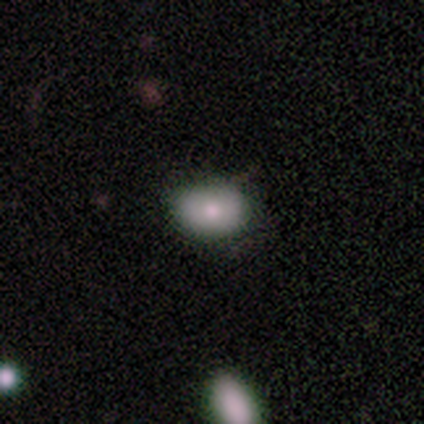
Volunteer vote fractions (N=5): smooth-or-featured: smooth: 60% | featured or disk: 20% | star or artifact: 20%
  how-rounded: in between: 67% | round: 33% | cigar-shaped: 0%
  merging: none: 100% | minor disturbance: 0% | major disturbance: 0% | merger: 0%